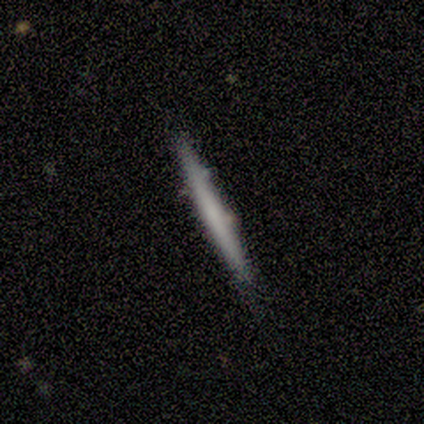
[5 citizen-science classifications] A smooth galaxy with no disk features (40%, tied with featured or disk) that is cigar-shaped (100%).

Vote fractions:
- Smooth or featured? smooth: 40% (tied) / featured or disk: 40% (tied) / star or artifact: 20%
- How rounded? cigar-shaped: 100% / round: 0% / in between: 0%
- Merging? none: 100% / minor disturbance: 0% / major disturbance: 0% / merger: 0%